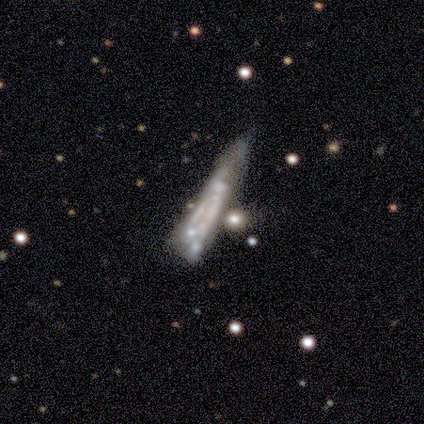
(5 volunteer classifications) smooth-or-featured: featured or disk: 80% | smooth: 20% | star or artifact: 0%
  disk-edge-on: no: 100% | yes: 0%
    bar: no: 100% | strong: 0% | weak: 0%
    has-spiral-arms: no: 75% | yes: 25%
    bulge-size: none: 100% | dominant: 0% | large: 0% | moderate: 0% | small: 0%
  merging: minor disturbance: 40% | none: 20% | major disturbance: 20% | merger: 20%